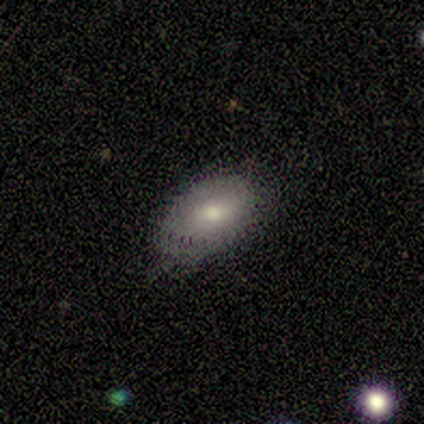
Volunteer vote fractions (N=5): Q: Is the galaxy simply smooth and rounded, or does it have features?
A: smooth — 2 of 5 (40%, tied with featured or disk).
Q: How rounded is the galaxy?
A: in between — 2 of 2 (100%).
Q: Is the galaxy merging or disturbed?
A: none — 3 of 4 (75%).